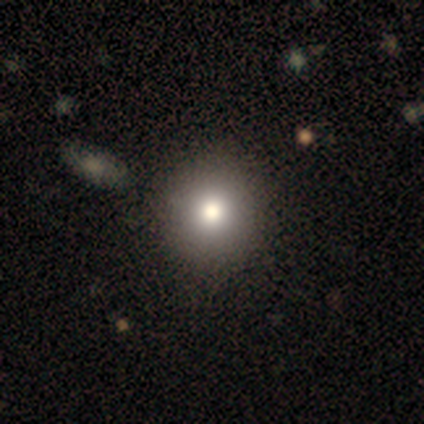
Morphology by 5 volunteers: Overall: smooth (60%; featured or disk 20%). How rounded: round (100%). Merging: none (50%, tied with minor disturbance).